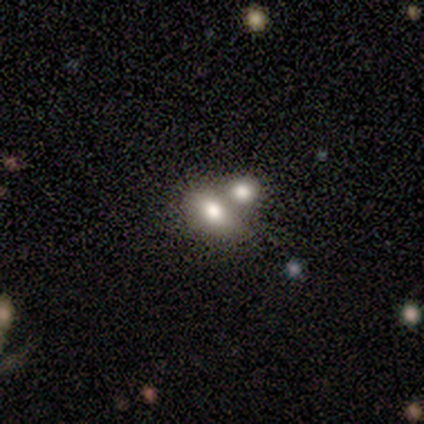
Morphology: type=featured or disk (60%); edge-on=no (100%); bar=no (100%); spiral arms=no (100%); bulge=large (67%); merging=merger (80%).